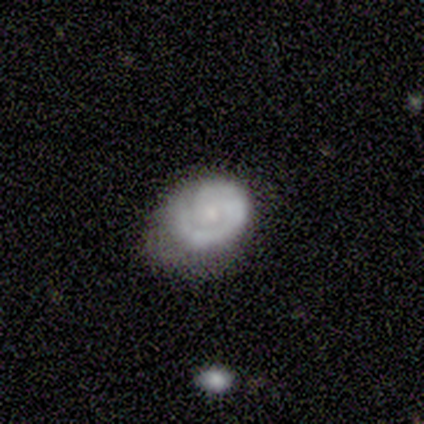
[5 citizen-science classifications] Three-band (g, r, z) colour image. It shows a featured or disk galaxy (60%) with no bar (67%), 1 (67%) loose (100%) spiral arms (100%) and a small central bulge (100%). Merging: none (60%).